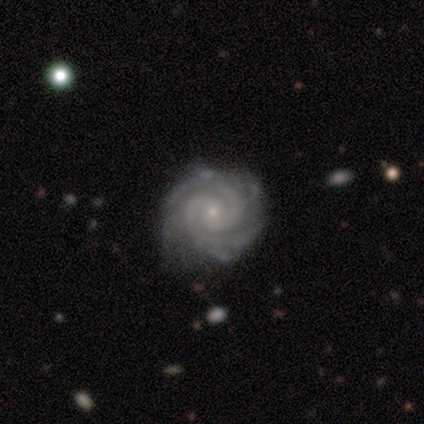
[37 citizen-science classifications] Smooth or featured?
  - featured or disk: 95% *
  - smooth: 3%
  - star or artifact: 3%
Edge-on disk?
  - no: 100% *
  - yes: 0%
Bar?
  - no: 77% *
  - weak: 17%
  - strong: 6%
Spiral arms?
  - yes: 100% *
  - no: 0%
Spiral winding?
  - tight: 83% *
  - medium: 17%
  - loose: 0%
Spiral arm count?
  - 2: 60% *
  - 3: 14%
  - more than 4: 14%
  - 4: 11%
  - 1: 0%
  - can't tell: 0%
Bulge size?
  - small: 83% *
  - moderate: 17%
  - dominant: 0%
  - large: 0%
  - none: 0%
Merging?
  - none: 75% *
  - minor disturbance: 17%
  - major disturbance: 8%
  - merger: 0%